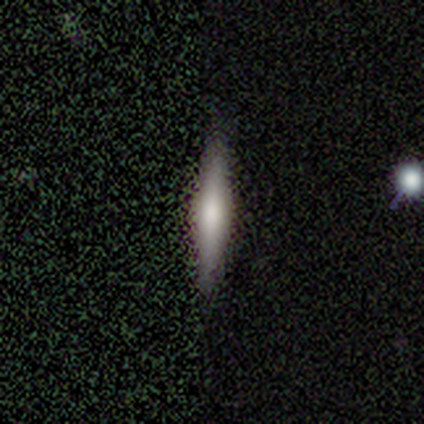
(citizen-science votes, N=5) Smooth or featured? smooth (60%)
How rounded? cigar-shaped (100%)
Merging? none (80%)